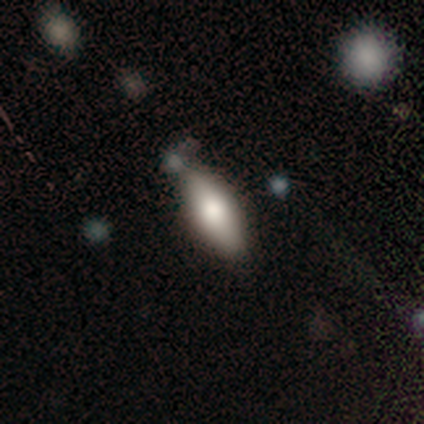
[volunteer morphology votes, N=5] Smooth or featured: smooth — 80% (star or artifact — 20%)
How rounded: in between — 100%
Merging: none — 75% (minor disturbance — 25%)